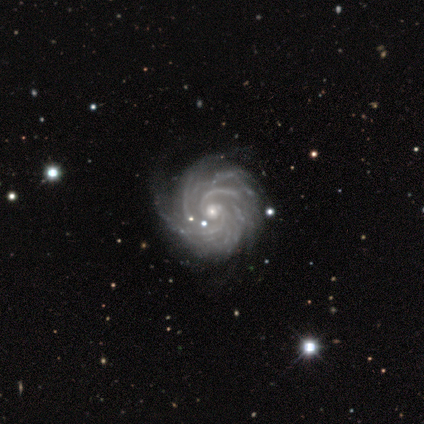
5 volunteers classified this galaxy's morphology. A featured or disk galaxy (100%) with no bar (60%), 4 (40%, tied with can't tell) tight (60%) spiral arms (100%) and a small central bulge (80%). Merging: none (80%).